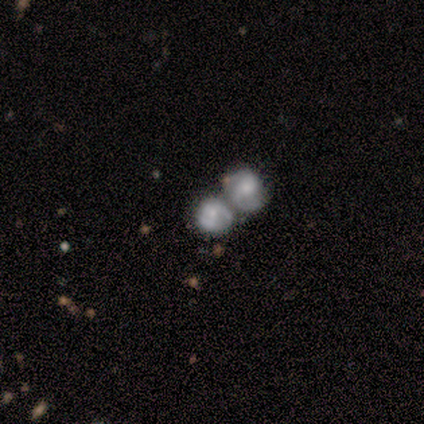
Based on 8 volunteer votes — featured or disk 62%, smooth 38%, star or artifact 0%. Down the decision tree: edge-on disk — no (100%); bar — no (100%); spiral arms — no (80%); bulge size — small (60%); merging — merger (75%).